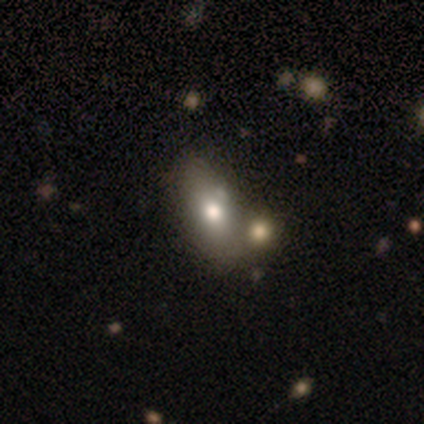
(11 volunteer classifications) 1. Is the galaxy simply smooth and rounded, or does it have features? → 55% smooth, 27% featured or disk, 18% star or artifact.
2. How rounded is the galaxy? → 100% in between, 0% round, 0% cigar-shaped.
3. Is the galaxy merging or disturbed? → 44% none, 33% minor disturbance, 22% merger, 0% major disturbance.